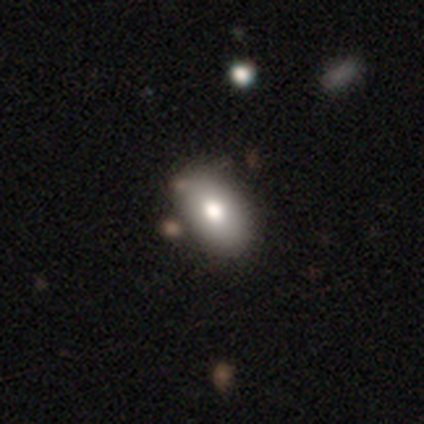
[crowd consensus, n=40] Smooth or featured? 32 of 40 (80%) said smooth. How rounded? 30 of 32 (94%) said in between. Merging? 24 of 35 (69%) said none.